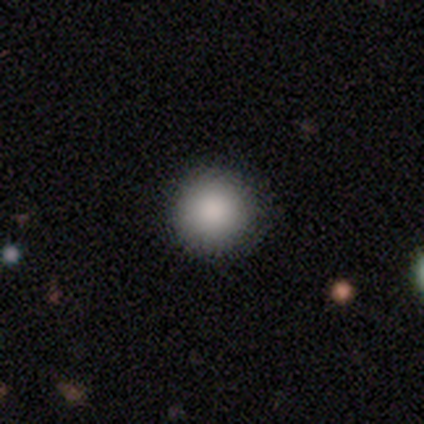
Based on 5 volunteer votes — smooth-or-featured: smooth: 100% | featured or disk: 0% | star or artifact: 0%
  how-rounded: round: 100% | in between: 0% | cigar-shaped: 0%
  merging: none: 100% | minor disturbance: 0% | major disturbance: 0% | merger: 0%